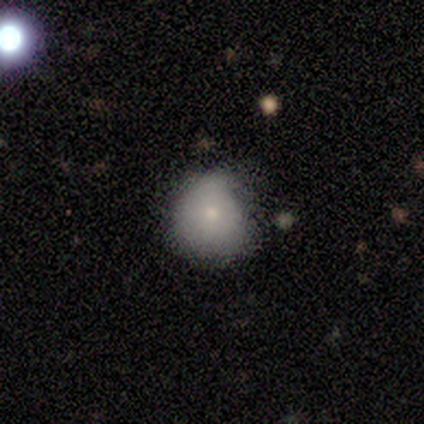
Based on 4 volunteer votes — This appears to be a smooth galaxy with no disk features (100%) that is round (100%). Merging: none (50%, tied with minor disturbance).